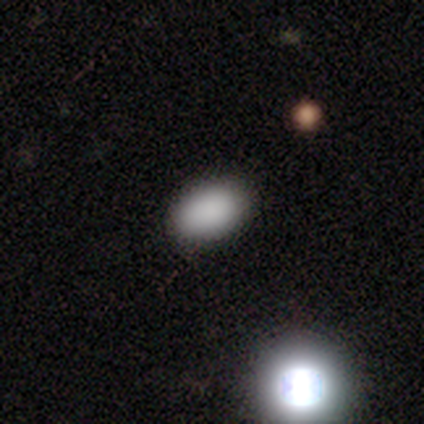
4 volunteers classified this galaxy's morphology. Smooth or featured? 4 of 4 (100%) said smooth. How rounded? 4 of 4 (100%) said in between. Merging? 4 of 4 (100%) said none.